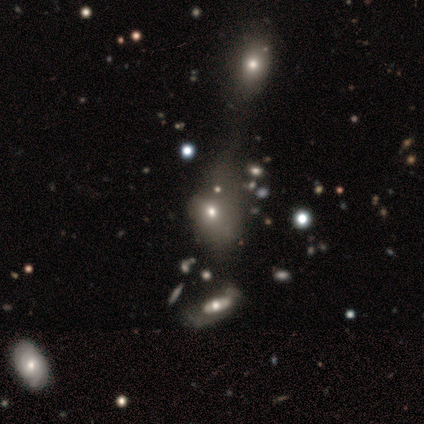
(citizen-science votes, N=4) Smooth or featured: smooth — 50% (featured or disk — 25%)
How rounded: round — 50% (tied with in between — 50%)
Merging: minor disturbance — 33% (tied with major disturbance — 33%; merger — 33%)